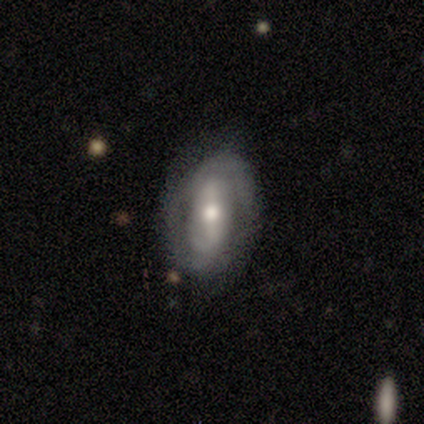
This is clearly a featured or disk galaxy (80%). It is clearly not viewed edge-on (100%). Bar: possibly strong (50%). Spiral arm pattern: likely yes (75%). Spiral arm count: clearly 2 (100%). Spiral winding: likely medium (67%). Central bulge: likely moderate (75%). Merging: likely none (60%).